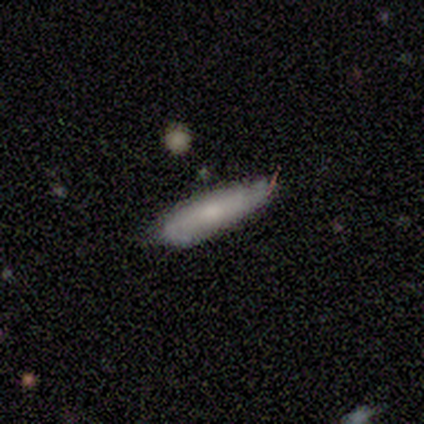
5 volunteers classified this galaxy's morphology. This appears to be a smooth galaxy with no disk features (60%) that is cigar-shaped (67%). Merging: none (80%).